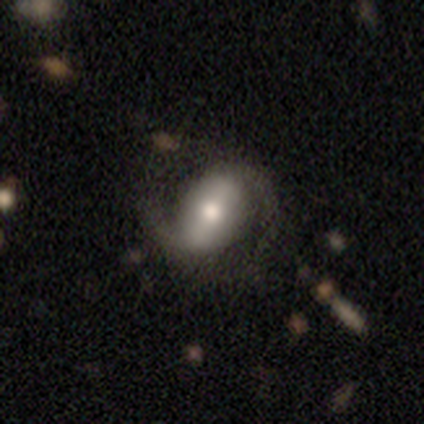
Smooth or featured? featured or disk (70%)
Edge-on disk? no (88%)
Bar? strong (61%)
Spiral arms? yes (96%)
Spiral winding? medium (45%)
Spiral arm count? 2 (100%)
Bulge size? moderate (61%)
Merging? none (76%)